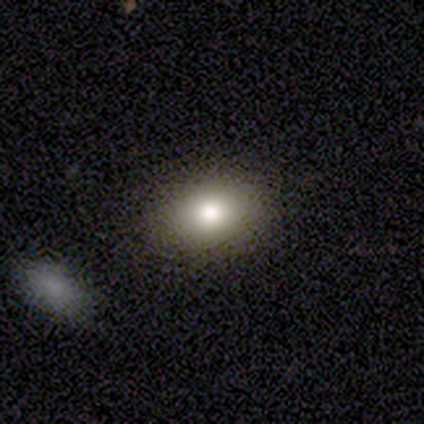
Smooth or featured: smooth — 79% (featured or disk — 10%)
How rounded: in between — 68% (round — 29%)
Merging: none — 89% (minor disturbance — 6%)